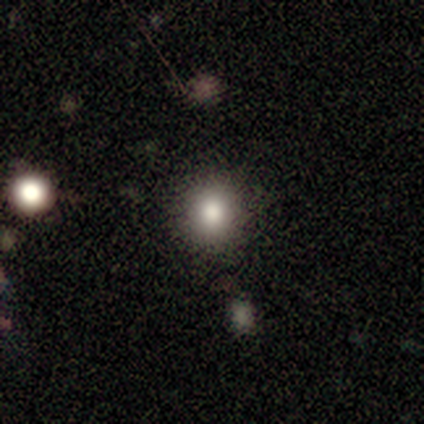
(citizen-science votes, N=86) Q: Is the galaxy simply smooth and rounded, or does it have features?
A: smooth — 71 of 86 (83%).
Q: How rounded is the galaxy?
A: round — 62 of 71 (87%).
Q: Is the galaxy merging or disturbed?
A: none — 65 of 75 (87%).